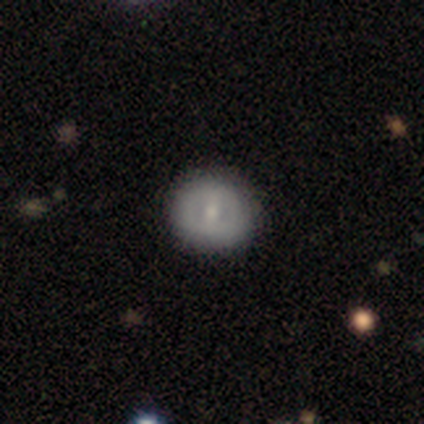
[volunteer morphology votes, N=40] smooth_or_featured: smooth (p=0.50) [alt: featured or disk p=0.40]
how_rounded: round (p=0.85) [alt: in between p=0.15]
merging: none (p=0.83) [alt: minor disturbance p=0.11]